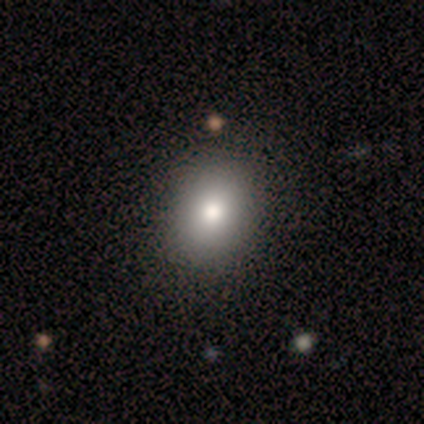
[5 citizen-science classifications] smooth_or_featured: smooth (p=1.00)
how_rounded: in between (p=0.60) [alt: round p=0.40]
merging: none (p=1.00)